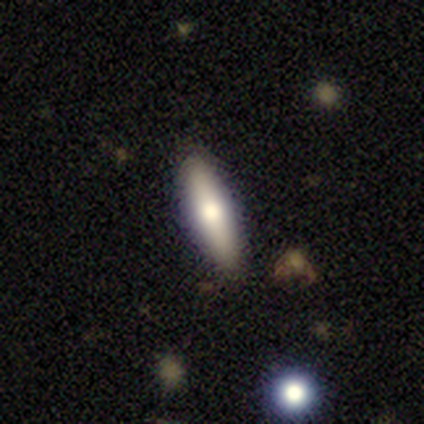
A smooth galaxy with no disk features (68%) that is cigar-shaped (73%). Merging: none (94%).